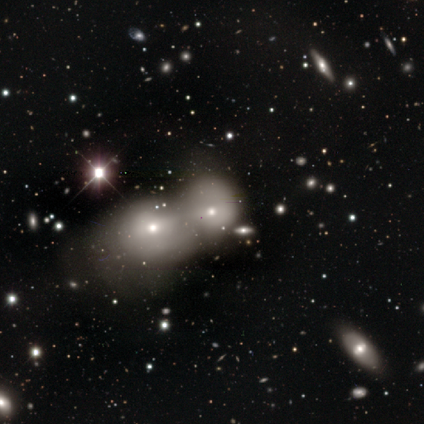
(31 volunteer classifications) Smooth or featured?
  - smooth: 68% *
  - featured or disk: 16%
  - star or artifact: 16%
How rounded?
  - round: 57% *
  - in between: 38%
  - cigar-shaped: 5%
Merging?
  - merger: 77% *
  - none: 4%
  - minor disturbance: 0%
  - major disturbance: 0%